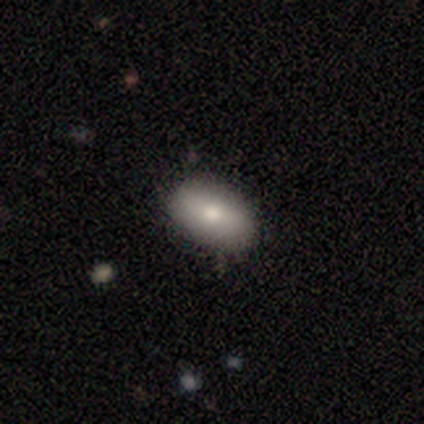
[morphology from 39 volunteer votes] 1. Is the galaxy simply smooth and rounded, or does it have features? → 85% smooth, 13% featured or disk, 3% star or artifact.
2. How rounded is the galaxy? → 91% in between, 9% round, 0% cigar-shaped.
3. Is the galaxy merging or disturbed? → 87% none, 8% minor disturbance, 3% major disturbance, 3% merger.